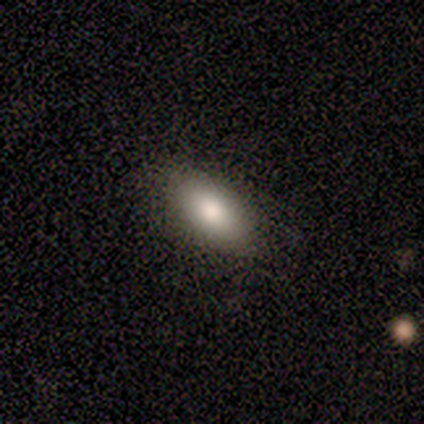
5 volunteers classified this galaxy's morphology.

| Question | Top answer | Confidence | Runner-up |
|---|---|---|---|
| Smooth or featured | smooth | 100% | — |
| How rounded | in between | 100% | — |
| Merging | none | 100% | — |